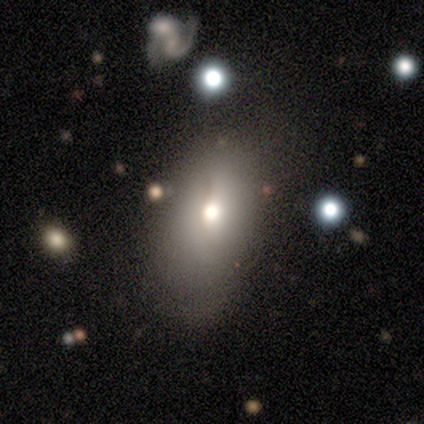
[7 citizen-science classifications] smooth_or_featured: smooth (p=0.71) [alt: featured or disk p=0.14]
how_rounded: in between (p=1.00)
merging: minor disturbance (p=0.83) [alt: none p=0.17]